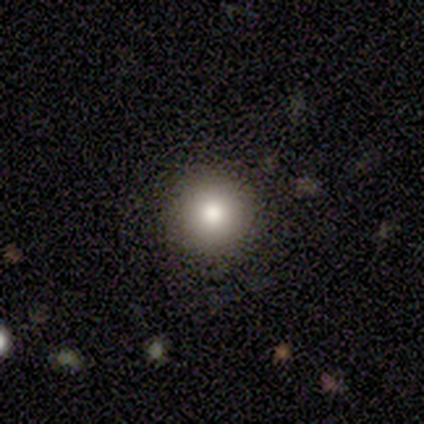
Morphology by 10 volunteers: This appears to be a smooth galaxy with no disk features (80%) that is round (100%). Merging: none (100%).